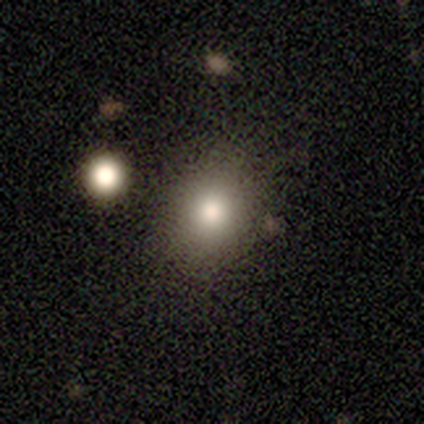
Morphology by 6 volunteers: Smooth or featured: smooth — 83% (featured or disk — 17%)
How rounded: round — 80% (in between — 20%)
Merging: none — 83% (minor disturbance — 17%)